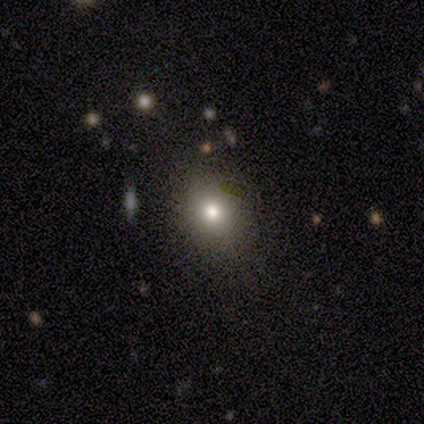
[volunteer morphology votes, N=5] Smooth or featured? smooth (100%)
How rounded? in between (60%)
Merging? none (60%)